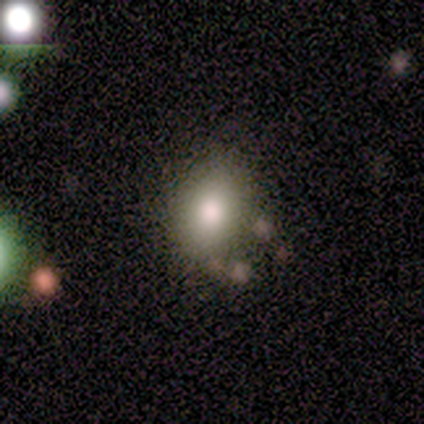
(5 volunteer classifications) Morphology: type=smooth (100%); roundness=round (60%); merging=none (100%).